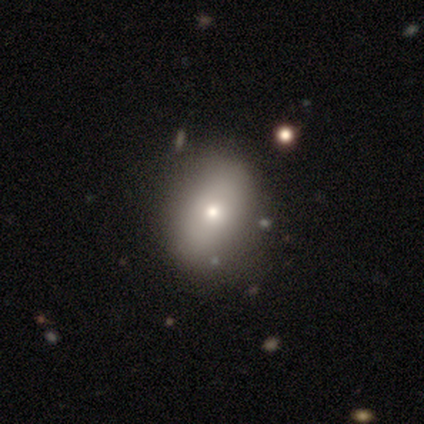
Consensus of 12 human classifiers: A smooth galaxy with no disk features (75%) that is in between round and cigar-shaped (78%).

Vote fractions:
- Smooth or featured? smooth: 75% / featured or disk: 25% / star or artifact: 0%
- How rounded? in between: 78% / round: 22% / cigar-shaped: 0%
- Merging? none: 83% / minor disturbance: 17% / major disturbance: 0% / merger: 0%